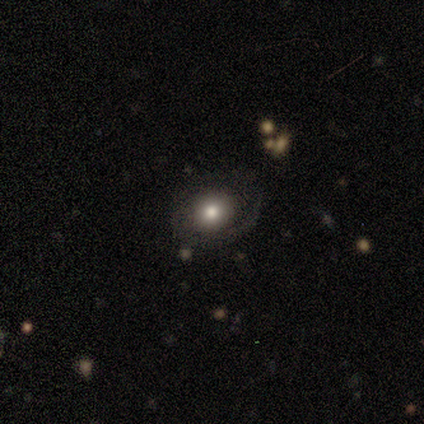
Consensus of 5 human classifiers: smooth 60%, featured or disk 40%, star or artifact 0%. Down the decision tree: how rounded — round (100%); merging — none (60%).